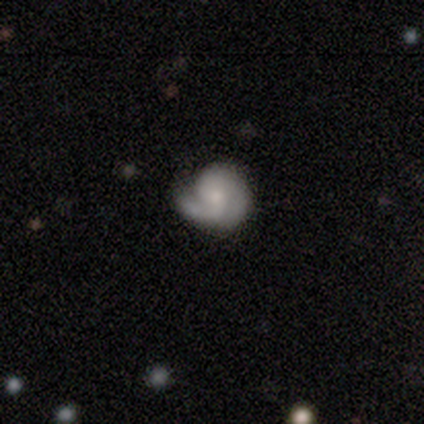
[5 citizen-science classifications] Morphology: type=featured or disk (80%); edge-on=no (100%); bar=no (100%); spiral arms=yes (75%); winding=medium (67%); arm count=2 (100%); bulge=moderate (50%, tied with small); merging=none (40%, tied with minor disturbance).